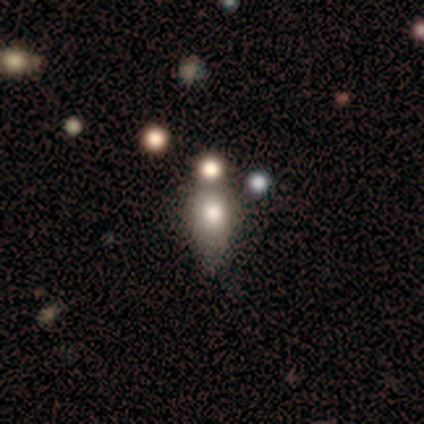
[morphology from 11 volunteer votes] Smooth or featured? smooth (64%)
How rounded? round (57%)
Merging? none (64%)